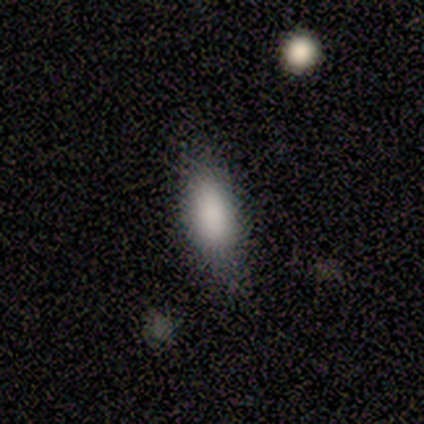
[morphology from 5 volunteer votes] smooth 100%, featured or disk 0%, star or artifact 0%. Down the decision tree: how rounded — in between (80%); merging — none (80%).